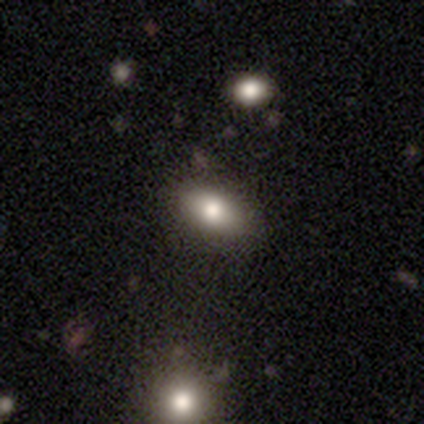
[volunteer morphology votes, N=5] This is clearly a smooth galaxy (100%). How rounded: clearly in between (100%). Merging: clearly none (100%).